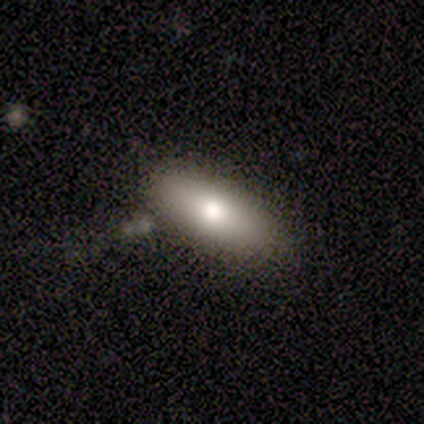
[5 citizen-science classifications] A smooth galaxy with no disk features (60%) that is in between round and cigar-shaped (67%). Merging: none (80%).